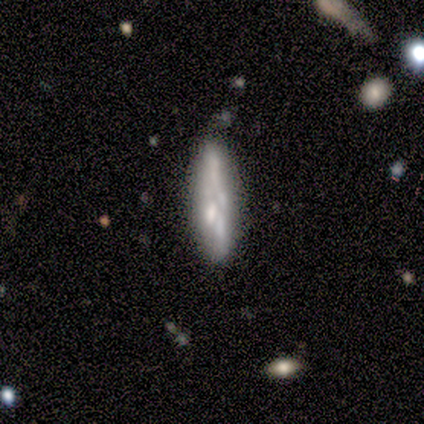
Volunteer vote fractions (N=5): A smooth galaxy with no disk features (40%, tied with star or artifact) that is cigar-shaped (100%).

Vote fractions:
- Smooth or featured? smooth: 40% (tied) / star or artifact: 40% (tied) / featured or disk: 20%
- How rounded? cigar-shaped: 100% / round: 0% / in between: 0%
- Merging? none: 33% (tied) / minor disturbance: 33% (tied) / merger: 33% (tied) / major disturbance: 0%